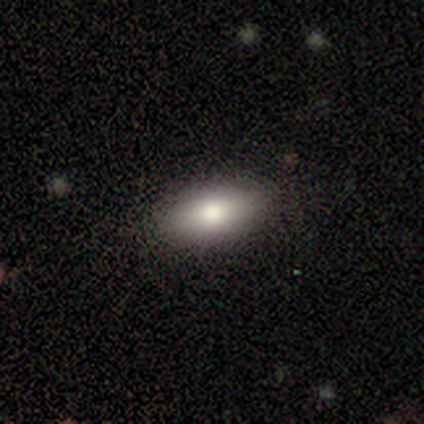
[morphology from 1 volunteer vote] Smooth or featured? 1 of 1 (100%) said smooth. How rounded? 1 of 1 (100%) said in between. Merging? 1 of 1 (100%) said none.